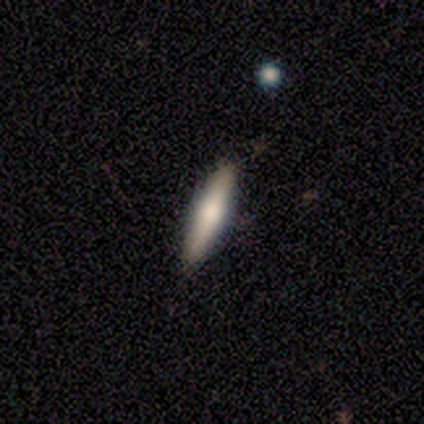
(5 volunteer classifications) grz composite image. It shows a smooth galaxy with no disk features (80%) that is cigar-shaped (75%). Merging: none (80%).